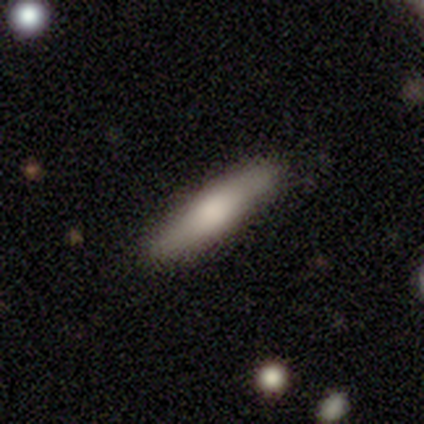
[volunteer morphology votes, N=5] smooth 60%, featured or disk 20%, star or artifact 20%. Down the decision tree: how rounded — cigar-shaped (100%); merging — none (75%).